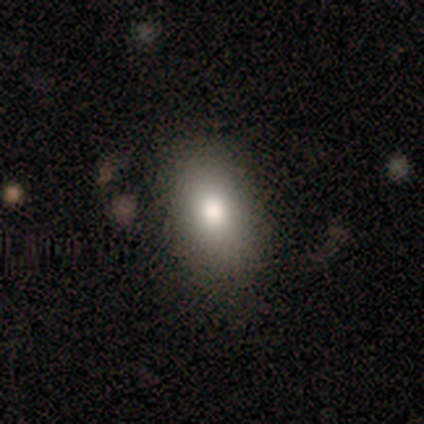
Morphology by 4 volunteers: Overall: smooth (75%). How rounded: in between (100%). Merging: none (67%; minor disturbance 33%).